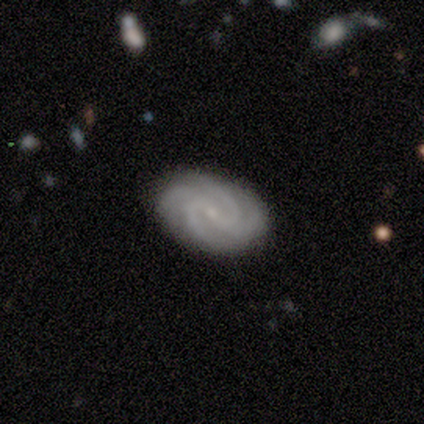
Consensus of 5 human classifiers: A featured or disk galaxy (80%) with a weak bar (75%), 4 (100%) tight (75%) spiral arms (100%) and a small central bulge (75%). Merging: none (100%).